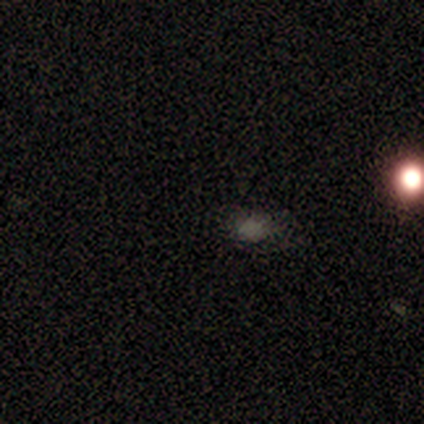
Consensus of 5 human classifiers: This appears to be a star or artifact, not a galaxy (60%).